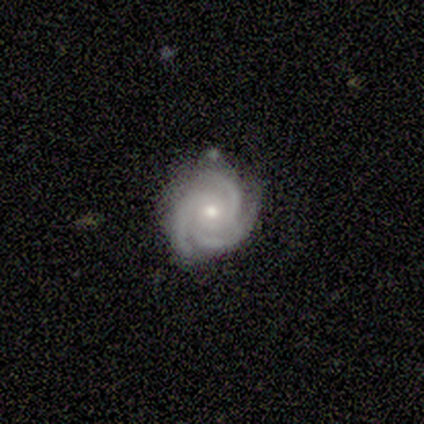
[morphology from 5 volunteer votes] Overall: featured or disk (100%). Edge-on disk: no (100%). Bar: no (60%; strong 20%). Spiral arms: yes (100%). Spiral arm count: 3 (100%). Spiral winding: tight (100%). Bulge size: small (60%; moderate 40%). Merging: none (100%).